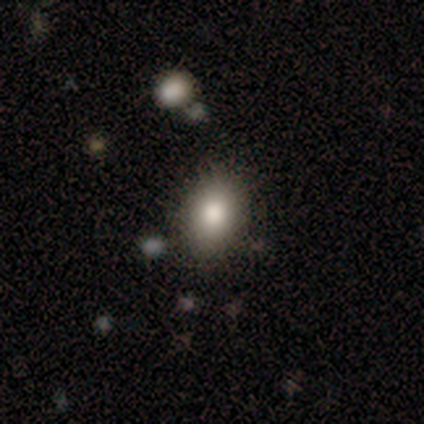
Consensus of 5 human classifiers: Morphology: type=smooth (100%); roundness=in between (80%); merging=none (80%).